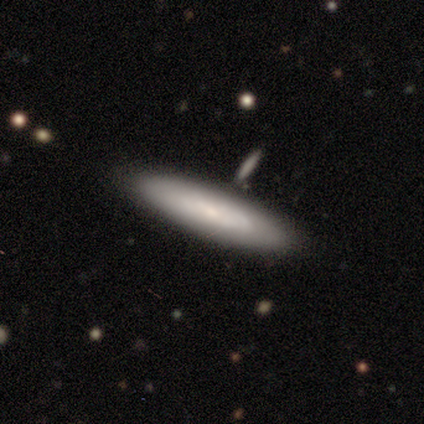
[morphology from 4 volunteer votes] Smooth or featured? 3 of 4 (75%) said smooth. How rounded? 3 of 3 (100%) said cigar-shaped. Merging? 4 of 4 (100%) said none.